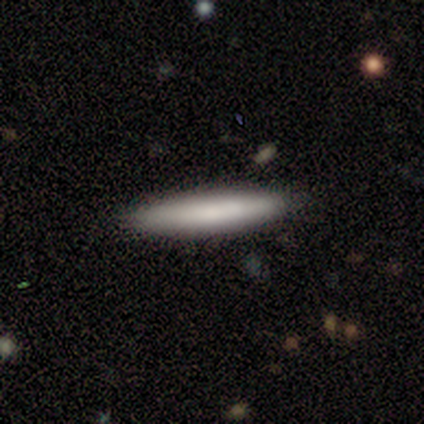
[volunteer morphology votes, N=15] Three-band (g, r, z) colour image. It shows a smooth galaxy with no disk features (87%) that is cigar-shaped (92%). Merging: none (87%).